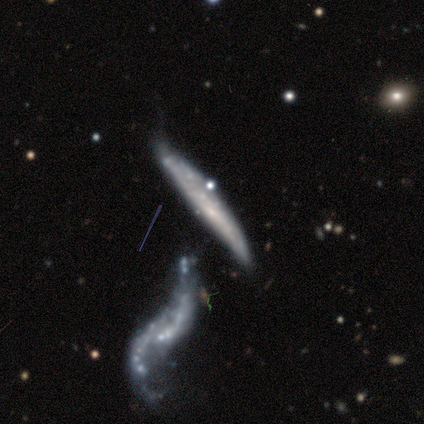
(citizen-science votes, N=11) smooth_or_featured: featured or disk (p=0.73) [alt: smooth p=0.27]
disk_edge_on: no (p=0.62) [alt: yes p=0.38]
bar: no (p=1.00)
has_spiral_arms: no (p=0.80) [alt: yes p=0.20]
bulge_size: none (p=0.60) [alt: small p=0.40]
merging: none (p=0.36) [alt: minor disturbance p=0.27]